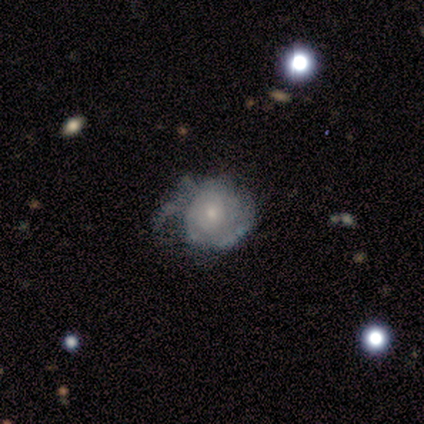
Overall: featured or disk (80%). Edge-on disk: no (100%). Bar: no (100%). Spiral arms: no (75%). Bulge size: small (50%; moderate 25%). Merging: major disturbance (60%; minor disturbance 40%).